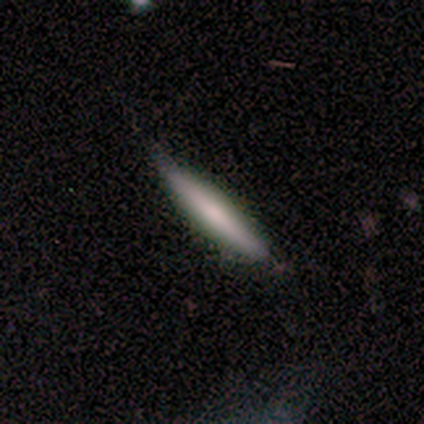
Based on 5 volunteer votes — Smooth or featured? 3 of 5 (60%) said smooth. How rounded? 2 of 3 (67%) said cigar-shaped. Merging? 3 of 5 (60%) said none.